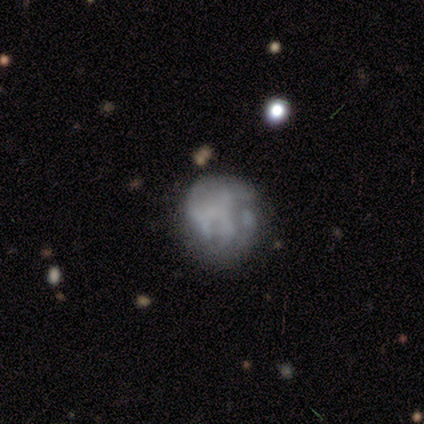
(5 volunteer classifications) Volunteers were most divided on "smooth or featured": featured or disk: 60%, smooth: 40%, star or artifact: 0%. More confident: edge-on disk — no (100%); bar — no (100%); merging — none (80%); spiral arms — no (67%); bulge size — none (67%).